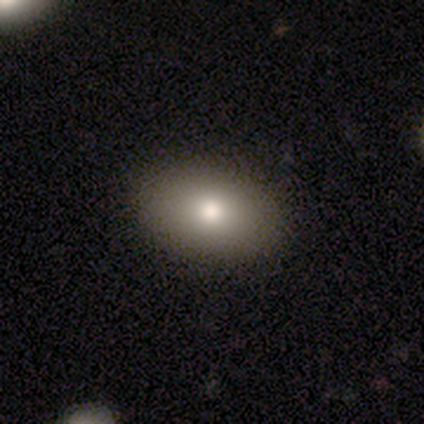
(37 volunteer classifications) Q: Smooth or featured?
A: smooth (76%); runner-up: star or artifact (19%)
Q: How rounded?
A: in between (89%); runner-up: round (11%)
Q: Merging?
A: none (87%); runner-up: minor disturbance (7%)